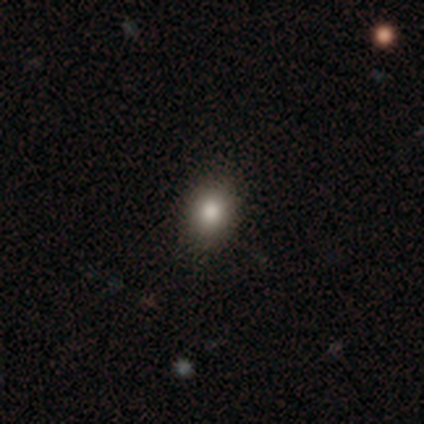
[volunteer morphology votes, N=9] This is clearly a smooth galaxy (100%). How rounded: clearly round (89%). Merging: likely none (67%).